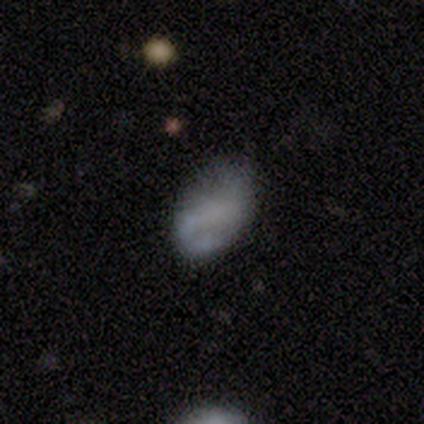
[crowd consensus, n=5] A smooth galaxy with no disk features (40%, tied with star or artifact) that is in between round and cigar-shaped (100%). Merging: none (100%).